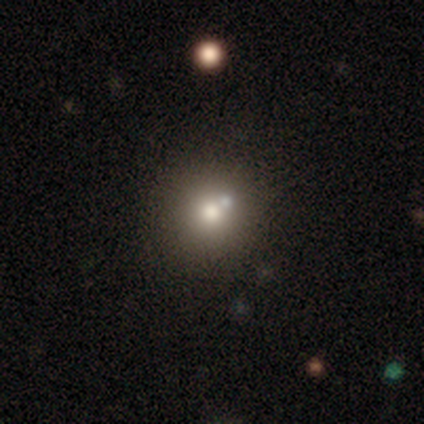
This appears to be a smooth galaxy with no disk features (60%) that is round (93%). Merging: none (74%).